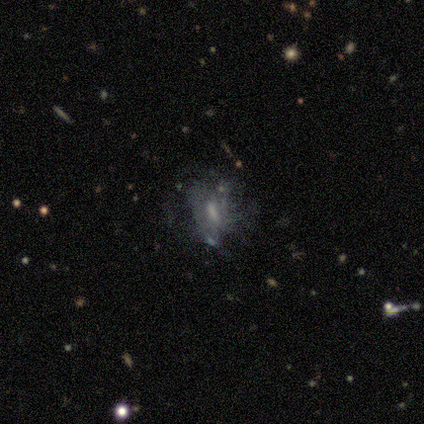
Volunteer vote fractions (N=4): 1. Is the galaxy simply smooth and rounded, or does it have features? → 75% featured or disk, 25% smooth, 0% star or artifact.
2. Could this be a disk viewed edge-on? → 100% no, 0% yes.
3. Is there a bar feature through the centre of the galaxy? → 67% no, 33% weak, 0% strong.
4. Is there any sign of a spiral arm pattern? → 100% no, 0% yes.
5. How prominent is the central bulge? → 67% small, 33% none, 0% dominant, 0% large, 0% moderate.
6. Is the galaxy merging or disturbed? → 50% none, 25% minor disturbance, 25% major disturbance, 0% merger.